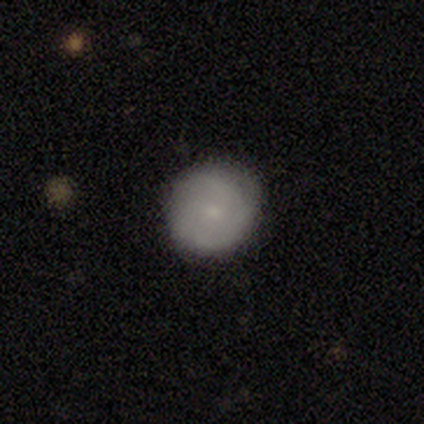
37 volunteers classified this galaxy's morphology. This is likely a smooth galaxy (68%). How rounded: clearly round (100%). Merging: clearly none (83%).